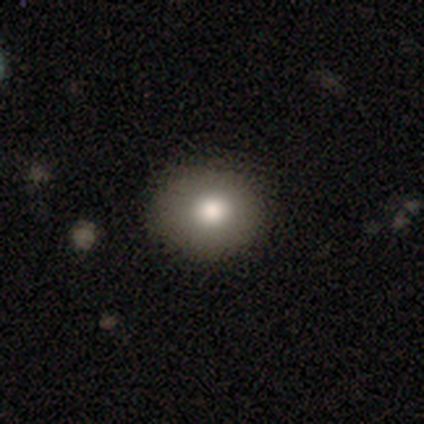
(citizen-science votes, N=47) A smooth galaxy with no disk features (81%) that is round (74%).

Vote fractions:
- Smooth or featured? smooth: 81% / featured or disk: 13% / star or artifact: 6%
- How rounded? round: 74% / in between: 26% / cigar-shaped: 0%
- Merging? none: 86% / minor disturbance: 9% / major disturbance: 2% / merger: 2%